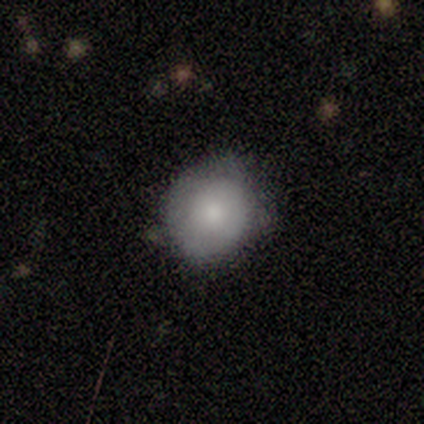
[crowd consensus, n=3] Smooth or featured? 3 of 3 (100%) said smooth. How rounded? 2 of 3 (67%) said round. Merging? 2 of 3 (67%) said minor disturbance.